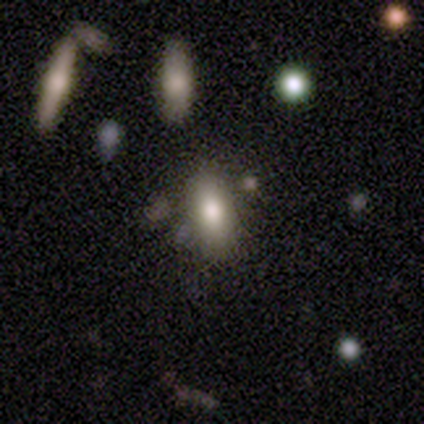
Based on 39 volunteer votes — Overall: smooth (82%). How rounded: in between (84%). Merging: none (74%).